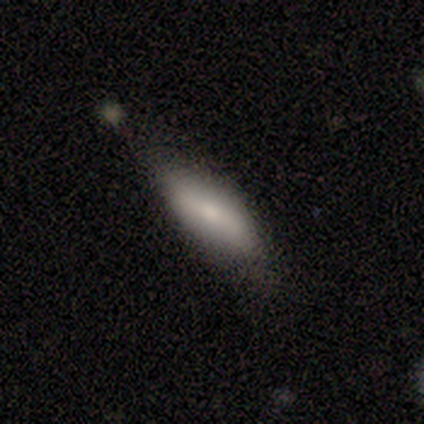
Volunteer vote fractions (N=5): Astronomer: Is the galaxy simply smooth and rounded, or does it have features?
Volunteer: featured or disk — 80%.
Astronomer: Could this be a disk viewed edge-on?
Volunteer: yes — 50%, tied with no at 50%.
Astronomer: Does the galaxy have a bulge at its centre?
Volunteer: boxy — 100%.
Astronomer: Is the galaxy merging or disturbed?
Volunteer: none — 60%.